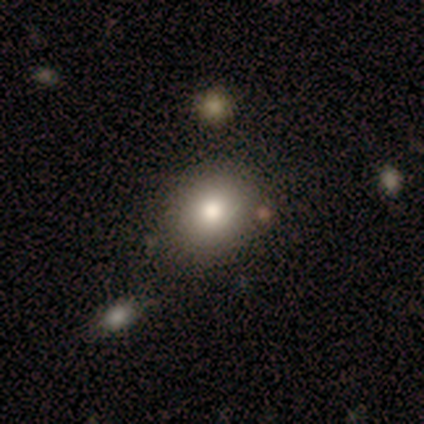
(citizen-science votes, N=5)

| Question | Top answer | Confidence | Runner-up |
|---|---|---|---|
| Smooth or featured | smooth | 40% | tied: featured or disk (40%) |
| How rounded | in between | 100% | — |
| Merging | minor disturbance | 50% | none (25%) |